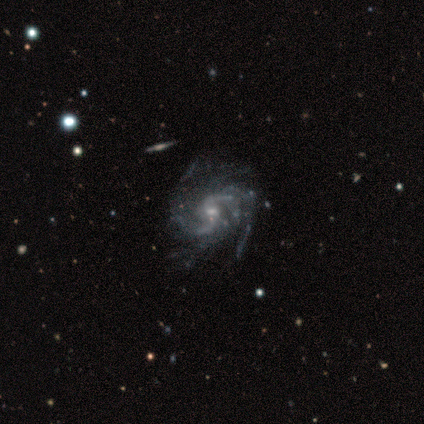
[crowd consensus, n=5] featured or disk 100%, smooth 0%, star or artifact 0%. Down the decision tree: edge-on disk — no (100%); bar — no (60%); spiral arms — yes (100%); spiral arm count — 2 (60%); spiral winding — medium (60%); bulge size — small (60%); merging — none (80%).